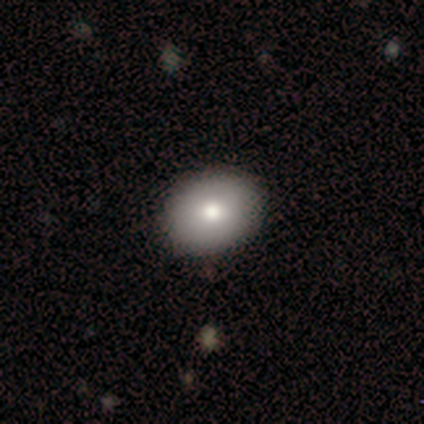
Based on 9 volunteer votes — Morphology: type=smooth (67%); roundness=in between (67%); merging=none (78%).